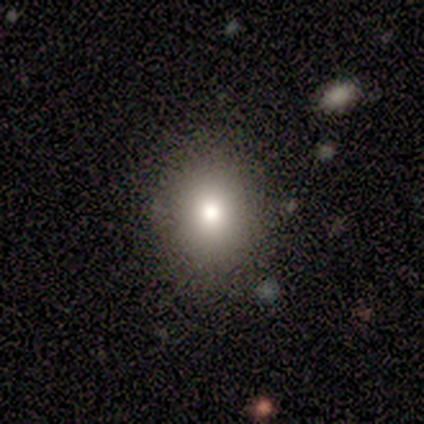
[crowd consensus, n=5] Smooth or featured: smooth — 60% (featured or disk — 20%)
How rounded: round — 100%
Merging: none — 75% (minor disturbance — 25%)